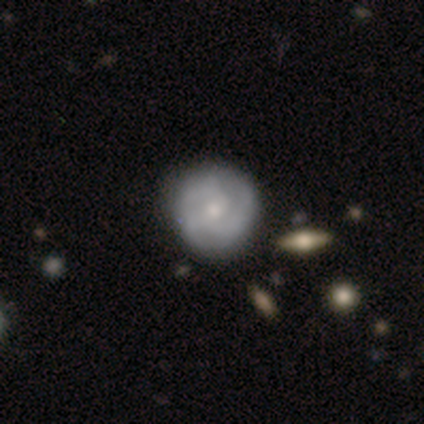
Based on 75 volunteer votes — Volunteers were most divided on "bulge size": small: 56%, moderate: 42%, large: 2%, dominant: 0%, none: 0%. More confident: edge-on disk — no (100%); spiral arms — yes (92%); merging — none (83%); bar — no (71%); smooth or featured — featured or disk (64%); spiral arm count — 3 (64%); spiral winding — tight (61%).